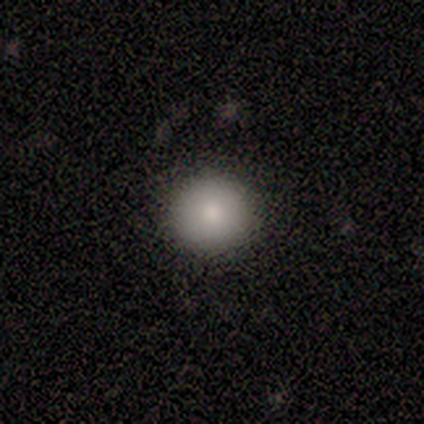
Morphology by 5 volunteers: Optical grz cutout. It shows a smooth galaxy with no disk features (100%) that is round (100%). Merging: none (100%).